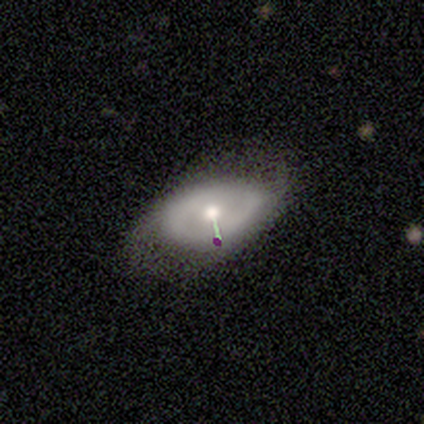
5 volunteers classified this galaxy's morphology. This is likely a featured or disk galaxy (60%). It is likely viewed edge-on (67%). Edge-on bulge: clearly rounded (100%). Merging: clearly minor disturbance (80%).